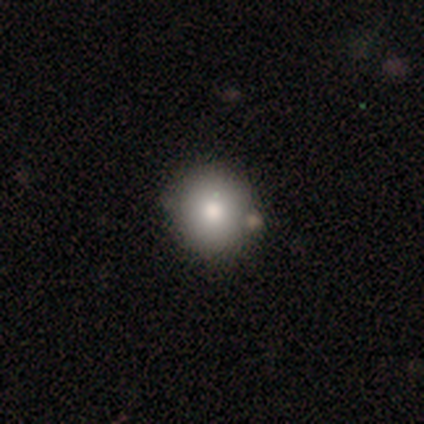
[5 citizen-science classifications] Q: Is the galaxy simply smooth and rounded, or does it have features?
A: smooth — 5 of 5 (100%).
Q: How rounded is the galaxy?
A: round — 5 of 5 (100%).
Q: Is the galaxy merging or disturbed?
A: none — 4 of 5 (80%).